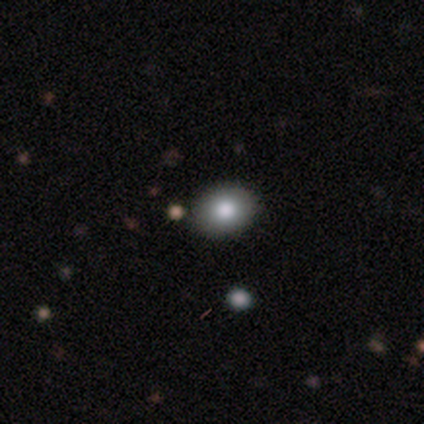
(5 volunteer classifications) Smooth or featured? smooth (60%)
How rounded? in between (67%)
Merging? none (100%)